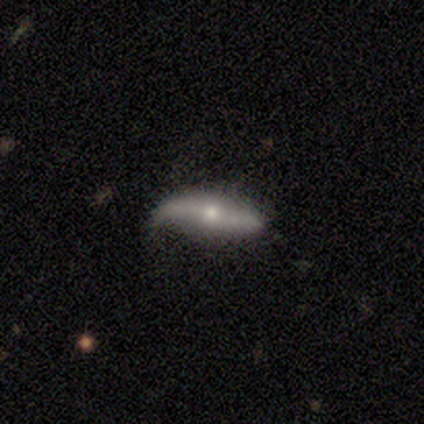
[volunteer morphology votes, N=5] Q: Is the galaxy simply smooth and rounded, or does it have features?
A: featured or disk — 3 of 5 (60%).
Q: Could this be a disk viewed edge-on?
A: yes — 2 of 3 (67%).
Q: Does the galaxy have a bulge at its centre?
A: rounded — 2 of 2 (100%).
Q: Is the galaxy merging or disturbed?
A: none — 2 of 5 (40%, tied with minor disturbance).